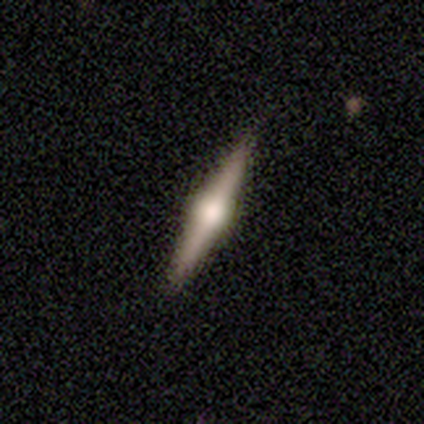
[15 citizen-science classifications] A featured or disk galaxy (73%) viewed edge-on (100%) with a rounded central bulge (73%). Merging: none (93%).